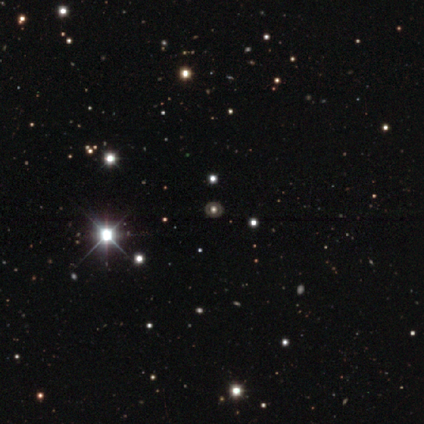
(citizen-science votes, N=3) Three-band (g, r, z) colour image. It shows a featured or disk galaxy (67%) with no bar (100%), no spiral arms (100%) and a large central bulge (50%, tied with moderate). Merging: none (100%).